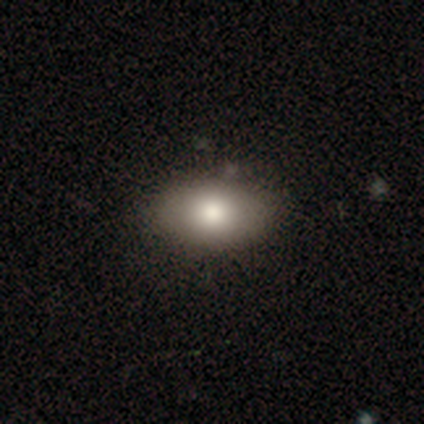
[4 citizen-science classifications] Smooth or featured? smooth (100%)
How rounded? in between (100%)
Merging? none (100%)